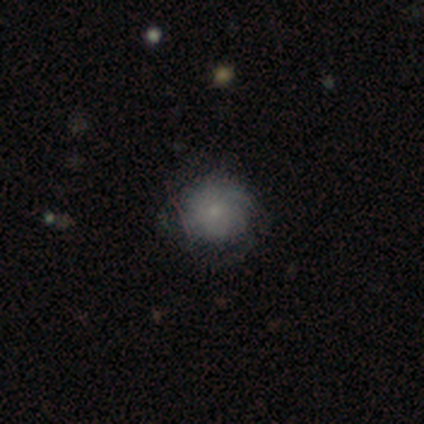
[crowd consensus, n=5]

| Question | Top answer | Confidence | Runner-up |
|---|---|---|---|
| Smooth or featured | smooth | 100% | — |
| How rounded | round | 80% | in between (20%) |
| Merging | none | 80% | minor disturbance (20%) |